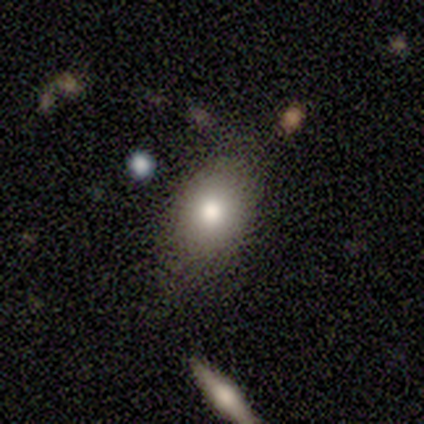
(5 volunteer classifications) Smooth or featured? 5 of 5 (100%) said smooth. How rounded? 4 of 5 (80%) said in between. Merging? 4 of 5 (80%) said none.